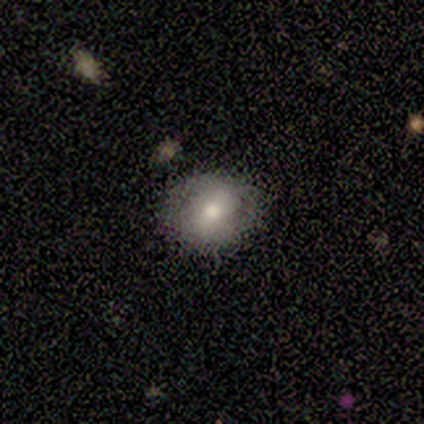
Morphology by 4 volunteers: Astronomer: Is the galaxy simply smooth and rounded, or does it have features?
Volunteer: star or artifact — 75%.